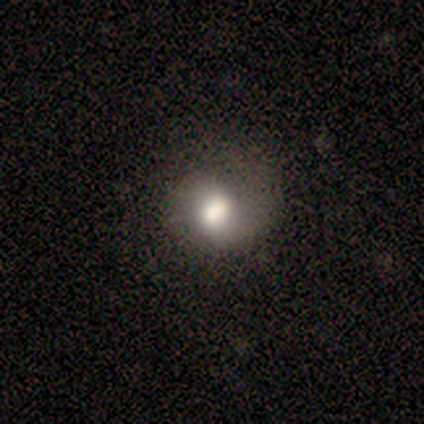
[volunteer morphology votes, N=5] smooth_or_featured: smooth (p=0.60) [alt: featured or disk p=0.20]
how_rounded: round (p=0.67) [alt: in between p=0.33]
merging: none (p=0.50) [tied with: minor disturbance p=0.50]